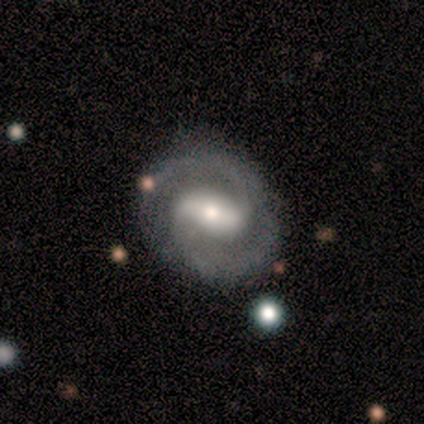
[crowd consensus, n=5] smooth_or_featured: featured or disk (p=1.00)
disk_edge_on: no (p=1.00)
bar: strong (p=0.60) [alt: weak p=0.40]
has_spiral_arms: yes (p=1.00)
spiral_winding: medium (p=0.60) [alt: tight p=0.20]
spiral_arm_count: 2 (p=0.80) [alt: can't tell p=0.20]
bulge_size: small (p=0.60) [alt: large p=0.20]
merging: none (p=0.80) [alt: minor disturbance p=0.20]